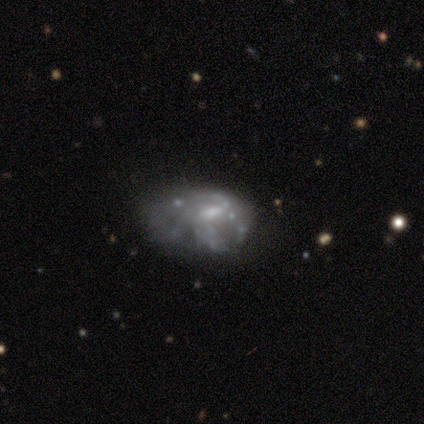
featured or disk 100%, smooth 0%, star or artifact 0%. Down the decision tree: edge-on disk — no (100%); bar — weak (40%, tied with no); spiral arms — yes (80%); spiral arm count — can't tell (75%); spiral winding — medium (75%); bulge size — small (60%); merging — minor disturbance (60%).